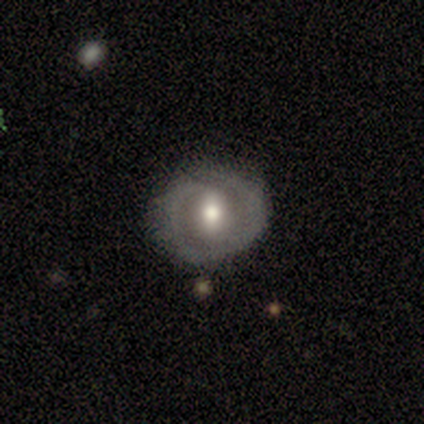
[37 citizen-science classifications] Q: Smooth or featured?
A: featured or disk (54%); runner-up: smooth (43%)
Q: Edge-on disk?
A: no (95%); runner-up: yes (5%)
Q: Bar?
A: strong (42%); runner-up: weak (37%)
Q: Spiral arms?
A: yes (63%); runner-up: no (37%)
Q: Spiral winding?
A: tight (50%); runner-up: medium (33%)
Q: Spiral arm count?
A: 2 (75%); runner-up: 1 (17%)
Q: Bulge size?
A: moderate (63%); runner-up: large (21%)
Q: Merging?
A: none (92%); runner-up: minor disturbance (6%)